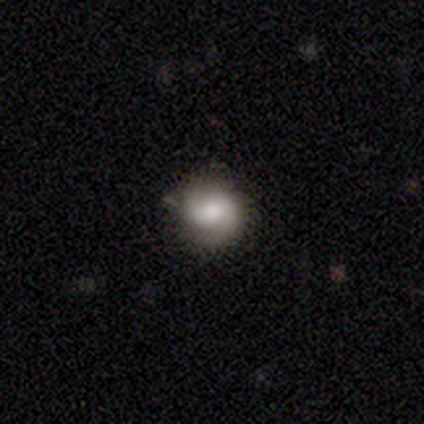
smooth-or-featured: smooth: 80% | featured or disk: 20% | star or artifact: 0%
  how-rounded: round: 100% | in between: 0% | cigar-shaped: 0%
  merging: none: 100% | minor disturbance: 0% | major disturbance: 0% | merger: 0%